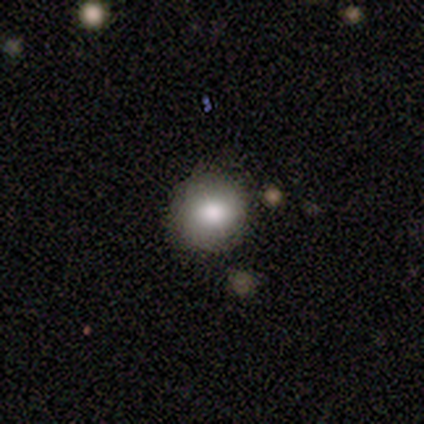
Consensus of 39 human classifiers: This appears to be a smooth galaxy with no disk features (79%) that is round (97%). Merging: none (89%).